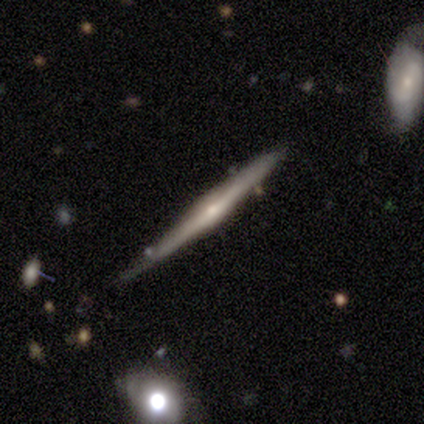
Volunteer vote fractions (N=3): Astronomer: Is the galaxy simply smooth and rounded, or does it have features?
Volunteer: featured or disk — 67%.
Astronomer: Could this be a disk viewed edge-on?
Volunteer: yes — 100%.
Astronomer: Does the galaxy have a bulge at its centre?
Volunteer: rounded — 100%.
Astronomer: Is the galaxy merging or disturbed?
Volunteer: none — 67%.